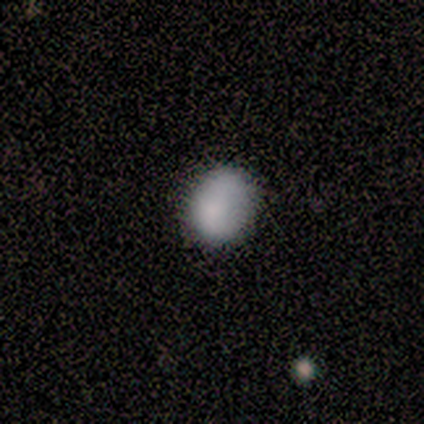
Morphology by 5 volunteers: Q: Smooth or featured?
A: smooth (80%); runner-up: featured or disk (20%)
Q: How rounded?
A: round (50%); tied with: in between (50%)
Q: Merging?
A: none (60%); runner-up: minor disturbance (20%)